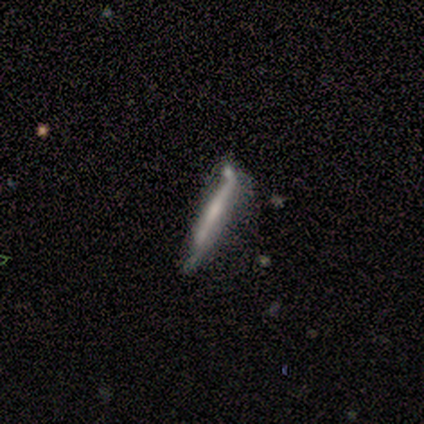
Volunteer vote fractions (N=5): Smooth or featured? smooth (60%)
How rounded? cigar-shaped (100%)
Merging? none (60%)